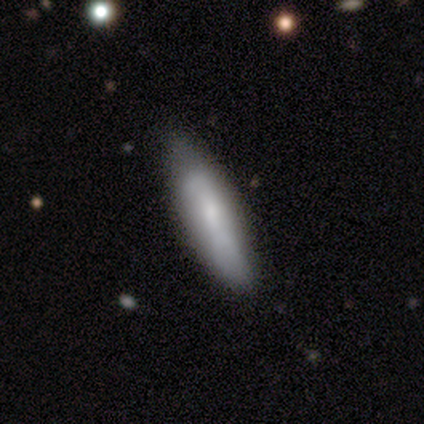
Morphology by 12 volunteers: Smooth or featured? 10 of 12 (83%) said smooth. How rounded? 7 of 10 (70%) said cigar-shaped. Merging? 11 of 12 (92%) said none.